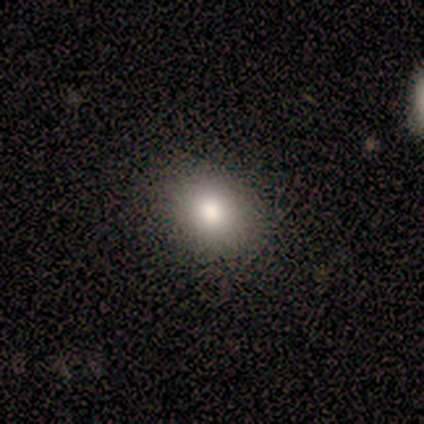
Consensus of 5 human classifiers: Volunteers were most divided on "how rounded" (2-way tie): round: 50%, in between: 50%, cigar-shaped: 0%; "merging" (2-way tie): none: 50%, minor disturbance: 50%, major disturbance: 0%, merger: 0%. More confident: smooth or featured — smooth (80%).